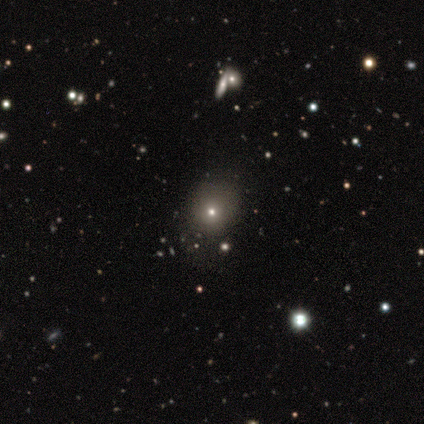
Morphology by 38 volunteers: Smooth or featured? smooth (53%)
How rounded? round (85%)
Merging? none (67%)